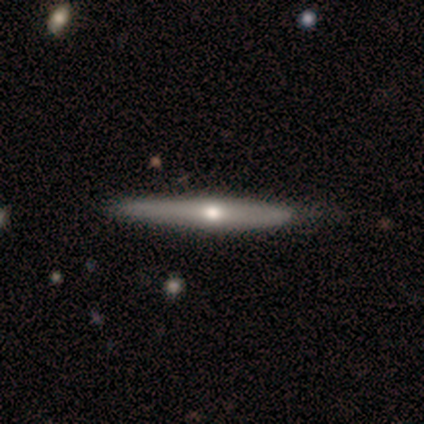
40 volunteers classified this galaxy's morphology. Smooth or featured: featured or disk — 72% (smooth — 28%)
Edge-on disk: yes — 90% (no — 10%)
Edge-on bulge: rounded — 88% (none — 8%)
Merging: none — 60% (minor disturbance — 10%)